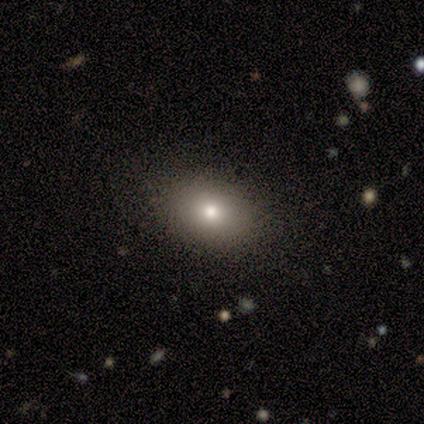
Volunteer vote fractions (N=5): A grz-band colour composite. It shows a smooth galaxy with no disk features (80%) that is in between round and cigar-shaped (100%). Merging: none (100%).